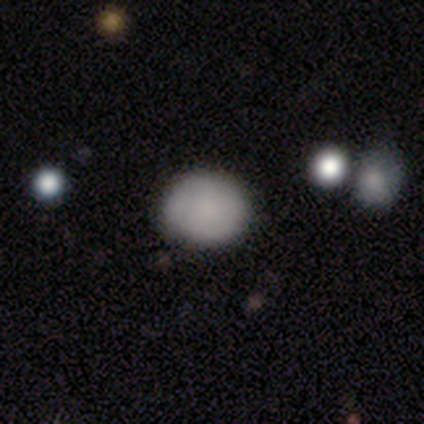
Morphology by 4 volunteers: Smooth or featured: smooth — 75% (star or artifact — 25%)
How rounded: round — 100%
Merging: none — 67% (minor disturbance — 33%)